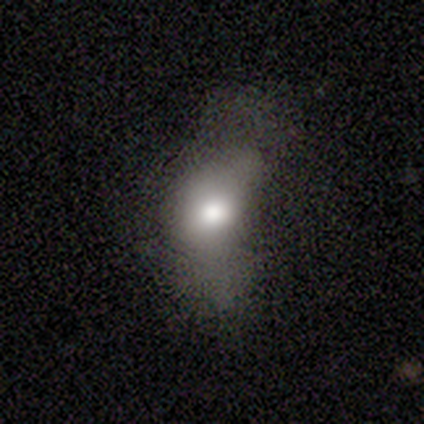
This appears to be a smooth galaxy with no disk features (73%) that is in between round and cigar-shaped (73%). Merging: major disturbance (52%).